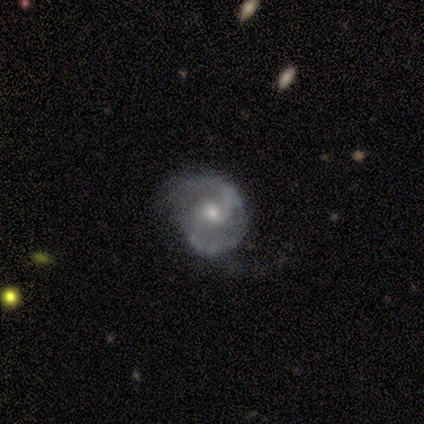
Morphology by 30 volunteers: smooth-or-featured: featured or disk: 70% | smooth: 17% | star or artifact: 13%
  disk-edge-on: no: 100% | yes: 0%
    bar: weak: 52% | no: 43% | strong: 5%
    has-spiral-arms: yes: 100% | no: 0%
      spiral-winding: medium: 52% | tight: 33% | loose: 14%
      spiral-arm-count: 2: 90% | can't tell: 10% | 1: 0% | 3: 0% | 4: 0% | more than 4: 0%
    bulge-size: moderate: 71% | small: 19% | large: 10% | dominant: 0% | none: 0%
  merging: none: 62% | minor disturbance: 27% | major disturbance: 12% | merger: 0%